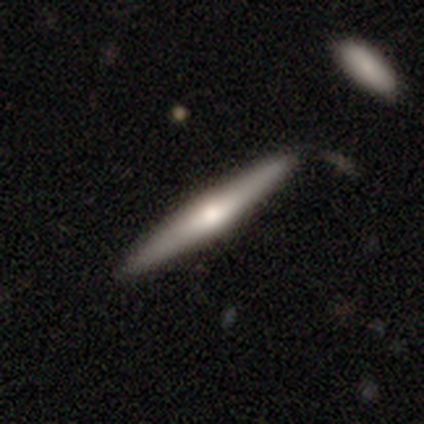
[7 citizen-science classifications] A smooth galaxy with no disk features (57%) that is cigar-shaped (100%). Merging: none (86%).